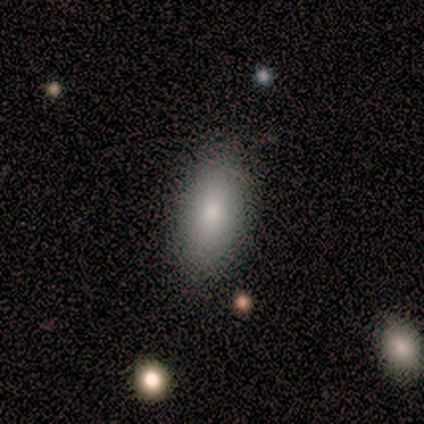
A smooth galaxy with no disk features (60%) that is in between round and cigar-shaped (67%). Merging: none (100%).